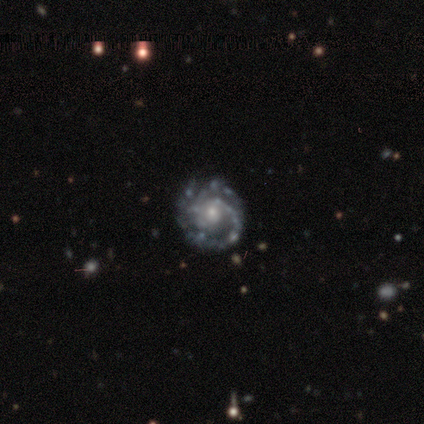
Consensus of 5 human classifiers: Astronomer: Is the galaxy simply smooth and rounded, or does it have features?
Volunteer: featured or disk — 80%.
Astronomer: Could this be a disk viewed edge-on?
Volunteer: no — 100%.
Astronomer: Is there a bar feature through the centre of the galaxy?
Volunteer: no — 50%.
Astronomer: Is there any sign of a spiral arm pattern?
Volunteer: yes — 75%.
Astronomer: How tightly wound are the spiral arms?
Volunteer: tight — 100%.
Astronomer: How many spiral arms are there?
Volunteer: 2 — 67%.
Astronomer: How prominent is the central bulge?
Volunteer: moderate — 75%.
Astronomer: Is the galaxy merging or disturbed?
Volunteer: none — 50%, tied with minor disturbance at 50%.